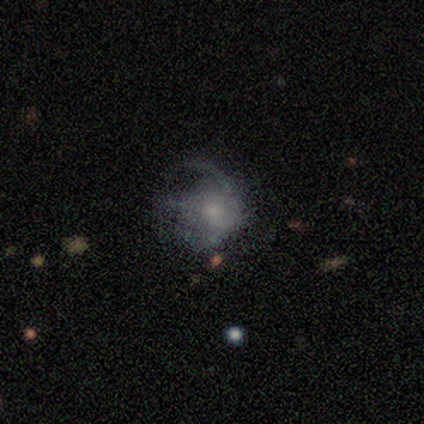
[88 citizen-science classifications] Smooth or featured? featured or disk (51%)
Edge-on disk? no (96%)
Bar? no (81%)
Spiral arms? yes (53%)
Spiral winding? medium (35%, tied with loose)
Spiral arm count? can't tell (35%)
Bulge size? small (56%)
Merging? major disturbance (54%)